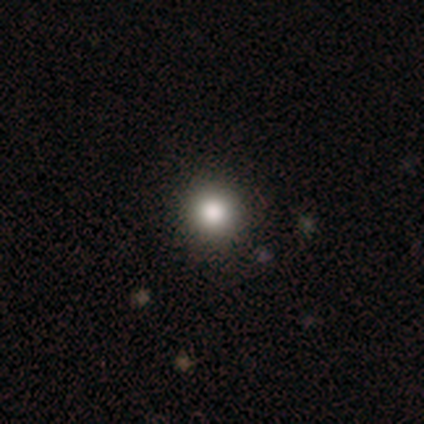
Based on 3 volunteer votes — Smooth or featured?
  - smooth: 67% *
  - star or artifact: 33%
  - featured or disk: 0%
How rounded?
  - round: 100% *
  - in between: 0%
  - cigar-shaped: 0%
Merging?
  - none: 100% *
  - minor disturbance: 0%
  - major disturbance: 0%
  - merger: 0%